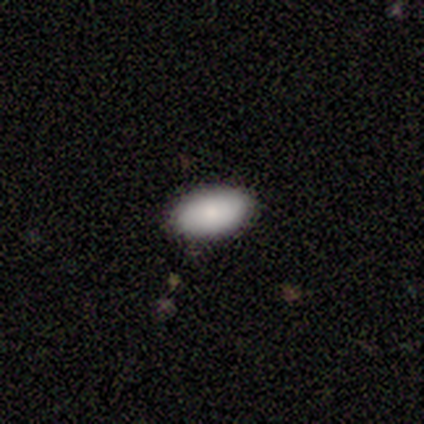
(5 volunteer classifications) smooth_or_featured: smooth (p=0.60) [alt: featured or disk p=0.40]
how_rounded: in between (p=1.00)
merging: none (p=1.00)